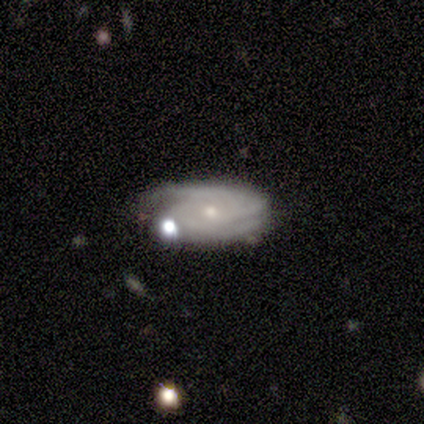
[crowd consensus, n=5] Smooth or featured? 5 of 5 (100%) said featured or disk. Edge-on disk? 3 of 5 (60%) said no. Bar? 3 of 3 (100%) said no. Spiral arms? 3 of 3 (100%) said yes. Spiral winding? 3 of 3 (100%) said tight. Spiral arm count? 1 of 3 (33%, tied with 4 and can't tell) said 2. Bulge size? 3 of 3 (100%) said small. Merging? 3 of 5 (60%) said none.